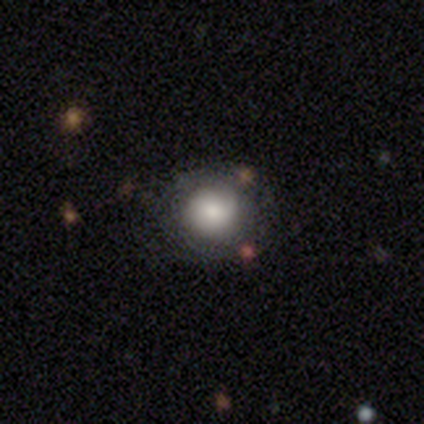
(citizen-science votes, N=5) This appears to be a smooth galaxy with no disk features (100%) that is round (100%). Merging: none (80%).